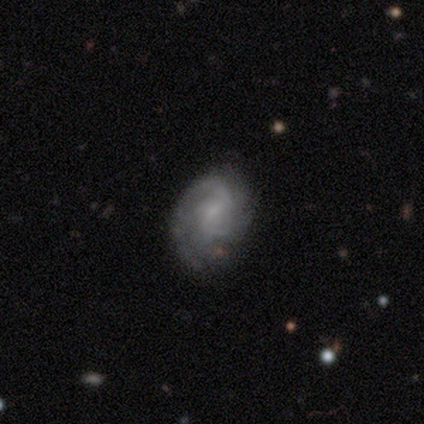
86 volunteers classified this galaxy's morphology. This is clearly a featured or disk galaxy (80%). It is clearly not viewed edge-on (99%). Bar: possibly weak (53%). Spiral arm pattern: clearly yes (94%). Spiral arm count: marginally 2 (44%). Spiral winding: possibly tight (58%). Central bulge: likely small (60%). Merging: likely none (66%).